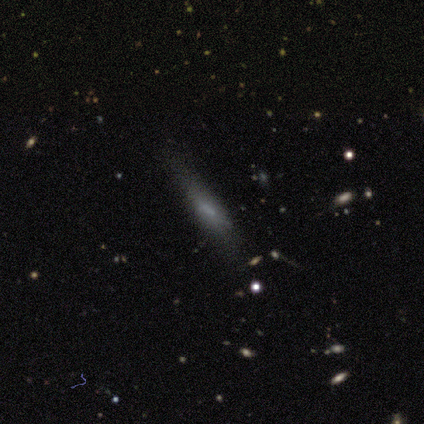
This appears to be a star or artifact, not a galaxy (67%).